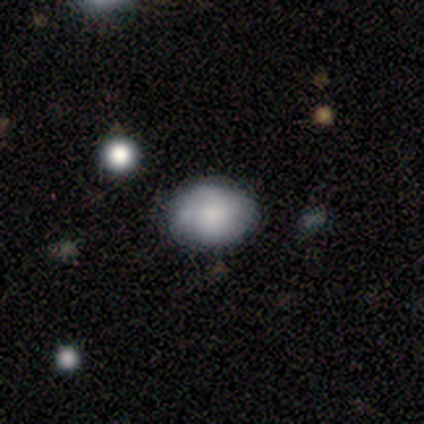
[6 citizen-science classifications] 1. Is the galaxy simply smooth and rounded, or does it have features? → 83% smooth, 17% featured or disk, 0% star or artifact.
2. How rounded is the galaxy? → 80% in between, 20% round, 0% cigar-shaped.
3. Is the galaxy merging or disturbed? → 83% none, 17% minor disturbance, 0% major disturbance, 0% merger.